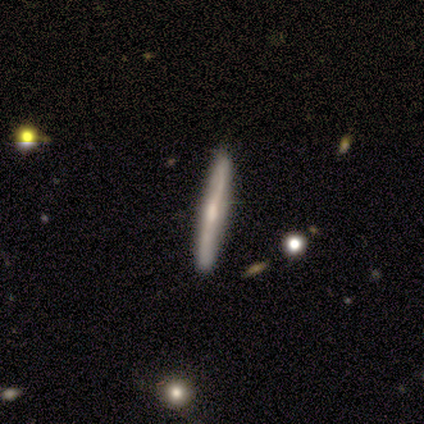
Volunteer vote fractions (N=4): This appears to be a featured or disk galaxy (75%) viewed edge-on (100%) with a rounded central bulge (100%). Merging: none (67%).